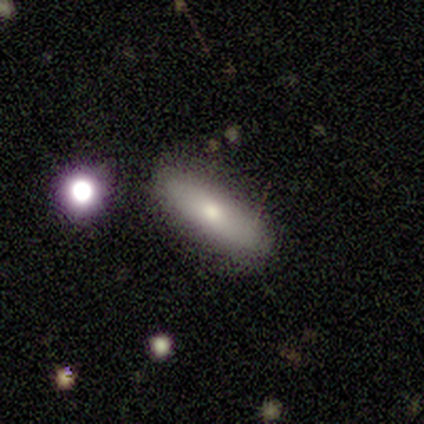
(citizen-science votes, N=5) A smooth galaxy with no disk features (100%) that is in between round and cigar-shaped (60%).

Vote fractions:
- Smooth or featured? smooth: 100% / featured or disk: 0% / star or artifact: 0%
- How rounded? in between: 60% / cigar-shaped: 40% / round: 0%
- Merging? none: 100% / minor disturbance: 0% / major disturbance: 0% / merger: 0%